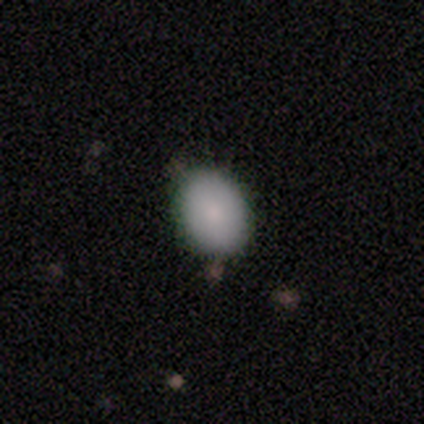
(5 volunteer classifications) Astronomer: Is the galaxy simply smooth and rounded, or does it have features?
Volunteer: smooth — 100%.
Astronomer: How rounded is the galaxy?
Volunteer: in between — 80%.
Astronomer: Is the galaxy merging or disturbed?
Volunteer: none — 100%.